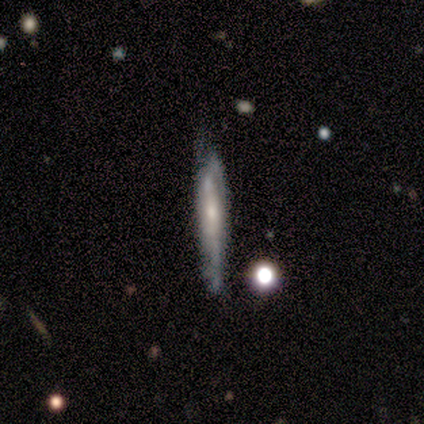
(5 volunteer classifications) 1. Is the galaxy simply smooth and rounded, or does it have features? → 80% featured or disk, 20% smooth, 0% star or artifact.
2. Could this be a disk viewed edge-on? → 100% yes, 0% no.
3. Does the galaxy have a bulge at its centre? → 75% none, 25% rounded, 0% boxy.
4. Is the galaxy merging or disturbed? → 60% none, 40% minor disturbance, 0% major disturbance, 0% merger.